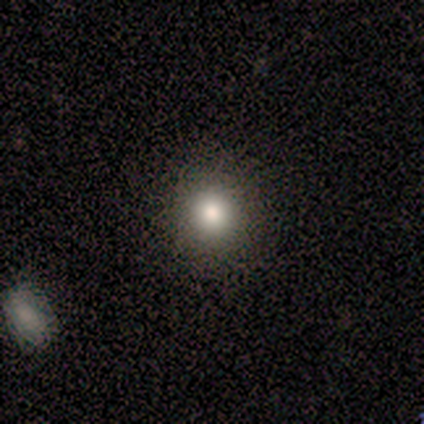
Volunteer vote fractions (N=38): Smooth or featured? smooth (76%)
How rounded? round (100%)
Merging? none (94%)